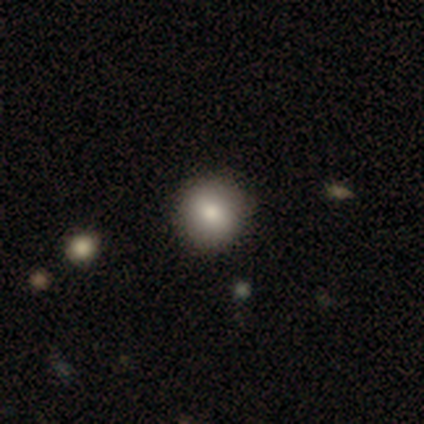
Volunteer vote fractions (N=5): Volunteers were most divided on "merging": none: 75%, merger: 25%, minor disturbance: 0%, major disturbance: 0%. More confident: how rounded — round (100%); smooth or featured — smooth (80%).